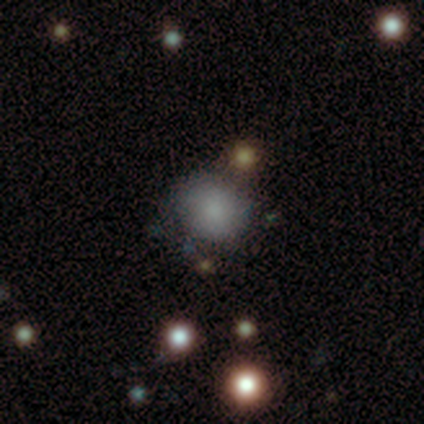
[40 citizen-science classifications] Smooth or featured: smooth — 72% (star or artifact — 15%)
How rounded: round — 83% (in between — 17%)
Merging: none — 47% (merger — 26%)